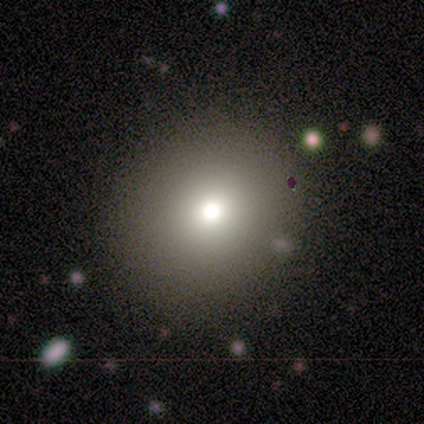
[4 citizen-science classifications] Volunteers were most divided on "smooth or featured" (2-way tie): smooth: 50%, featured or disk: 50%, star or artifact: 0%; "how rounded" (2-way tie): round: 50%, in between: 50%, cigar-shaped: 0%. More confident: merging — none (100%).